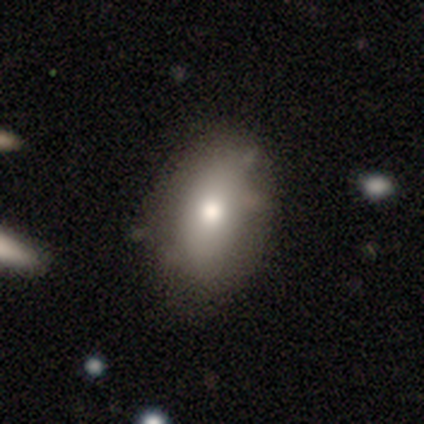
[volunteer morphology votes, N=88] A smooth galaxy with no disk features (77%) that is in between round and cigar-shaped (93%). Merging: none (81%).